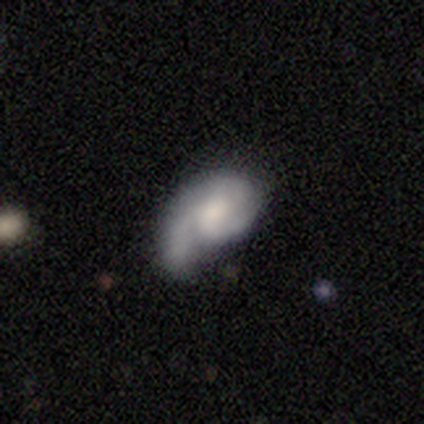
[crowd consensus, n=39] featured or disk 64%, smooth 31%, star or artifact 5%. Down the decision tree: edge-on disk — no (100%); bar — no (72%); spiral arms — yes (92%); spiral arm count — 1 (39%); spiral winding — medium (52%); bulge size — moderate (64%); merging — none (38%).